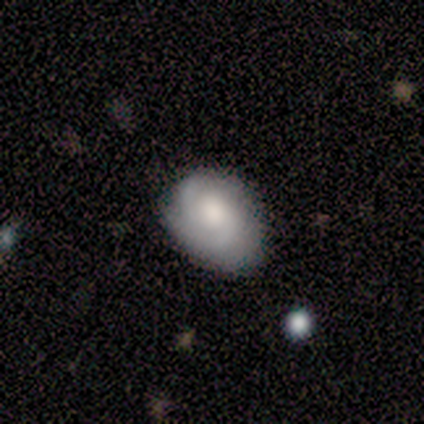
smooth_or_featured: smooth (p=0.60) [alt: featured or disk p=0.40]
how_rounded: round (p=0.67) [alt: in between p=0.33]
merging: none (p=0.80) [alt: minor disturbance p=0.20]